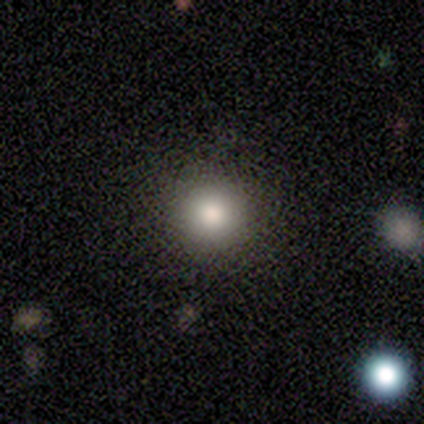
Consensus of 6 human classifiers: Overall: smooth (83%). How rounded: round (100%). Merging: none (83%).